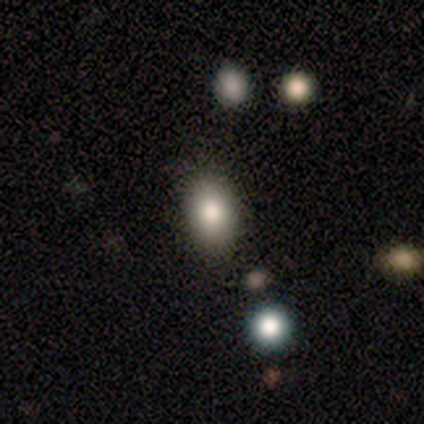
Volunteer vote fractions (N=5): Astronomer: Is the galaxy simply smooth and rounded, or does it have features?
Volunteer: smooth — 100%.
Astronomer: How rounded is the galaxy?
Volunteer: in between — 80%.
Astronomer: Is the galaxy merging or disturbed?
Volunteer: none — 100%.